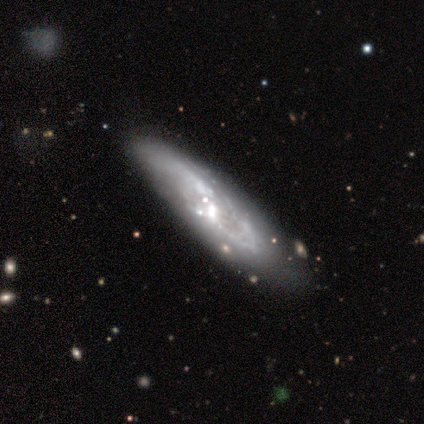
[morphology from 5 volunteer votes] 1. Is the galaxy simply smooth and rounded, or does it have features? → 100% featured or disk, 0% smooth, 0% star or artifact.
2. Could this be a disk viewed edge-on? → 80% no, 20% yes.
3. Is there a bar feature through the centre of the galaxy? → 100% no, 0% strong, 0% weak.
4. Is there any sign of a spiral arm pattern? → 75% no, 25% yes.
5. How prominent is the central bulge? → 50% moderate (tied), 50% small (tied), 0% dominant, 0% large, 0% none.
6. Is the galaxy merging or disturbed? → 40% none (tied), 40% minor disturbance (tied), 20% merger, 0% major disturbance.